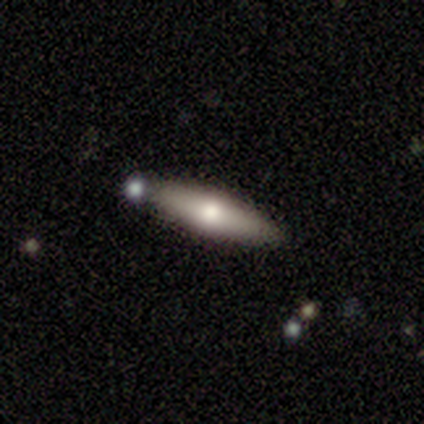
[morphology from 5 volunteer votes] type=smooth (80%); roundness=in between (50%, tied with cigar-shaped); merging=none (100%).